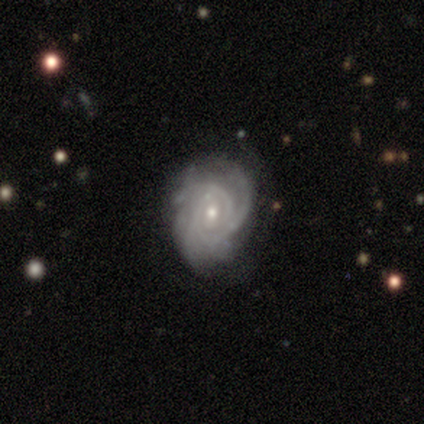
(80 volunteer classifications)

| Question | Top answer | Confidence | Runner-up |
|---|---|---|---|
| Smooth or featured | featured or disk | 91% | star or artifact (5%) |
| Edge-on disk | no | 97% | yes (3%) |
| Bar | no | 63% | weak (34%) |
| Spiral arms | yes | 100% | — |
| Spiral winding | tight | 63% | medium (30%) |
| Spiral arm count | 3 | 45% | can't tell (28%) |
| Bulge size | small | 52% | moderate (44%) |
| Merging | none | 24% | minor disturbance (21%) |